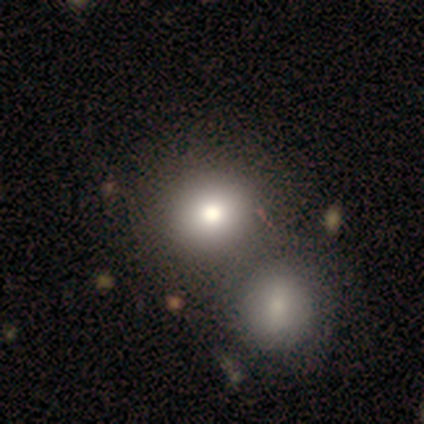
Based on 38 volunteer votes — smooth 76%, featured or disk 13%, star or artifact 11%. Down the decision tree: how rounded — round (90%); merging — merger (53%).